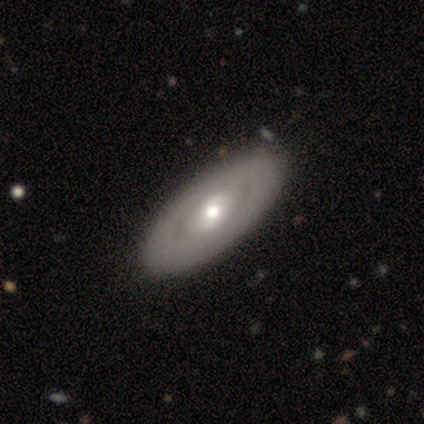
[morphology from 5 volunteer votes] smooth_or_featured: featured or disk (p=0.80) [alt: smooth p=0.20]
disk_edge_on: no (p=1.00)
bar: no (p=0.75) [alt: weak p=0.25]
has_spiral_arms: no (p=1.00)
bulge_size: moderate (p=0.50) [alt: large p=0.25]
merging: none (p=1.00)